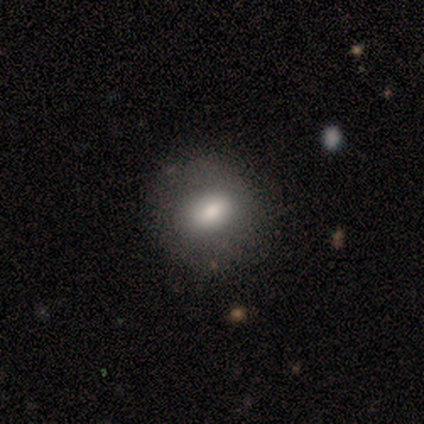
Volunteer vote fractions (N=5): This is clearly a smooth galaxy (80%). How rounded: possibly round (50%, tied with in between). Merging: clearly none (80%).